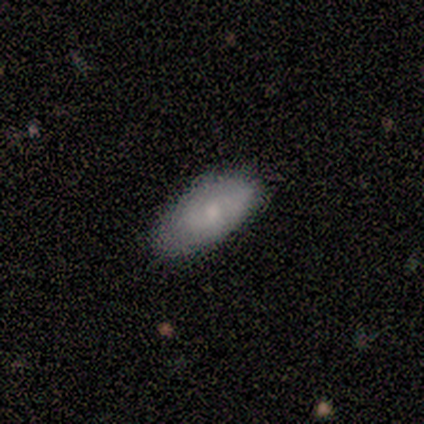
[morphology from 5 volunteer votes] Smooth or featured: smooth — 60% (featured or disk — 40%)
How rounded: in between — 100%
Merging: none — 60% (minor disturbance — 20%)